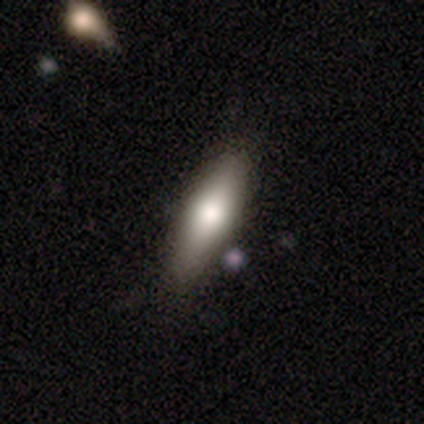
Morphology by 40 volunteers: A smooth galaxy with no disk features (62%) that is in between round and cigar-shaped (52%).

Vote fractions:
- Smooth or featured? smooth: 62% / featured or disk: 35% / star or artifact: 2%
- How rounded? in between: 52% / cigar-shaped: 40% / round: 8%
- Merging? none: 59% / minor disturbance: 8% / major disturbance: 3% / merger: 0%